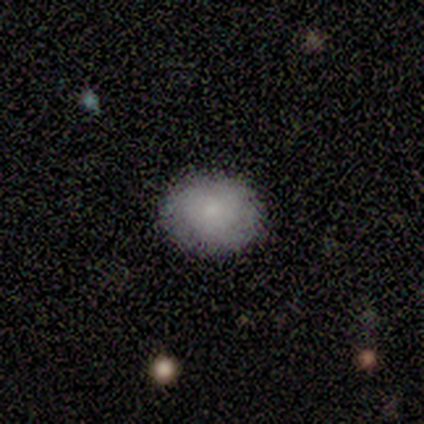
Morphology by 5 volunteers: smooth 60%, featured or disk 40%, star or artifact 0%. Down the decision tree: how rounded — in between (67%); merging — none (100%).